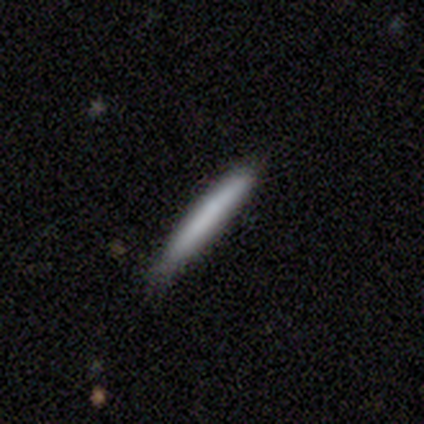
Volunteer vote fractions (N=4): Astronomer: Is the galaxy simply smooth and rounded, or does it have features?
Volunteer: smooth — 50%, tied with featured or disk at 50%.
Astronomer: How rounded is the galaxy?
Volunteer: cigar-shaped — 100%.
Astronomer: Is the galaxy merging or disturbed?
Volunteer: none — 100%.